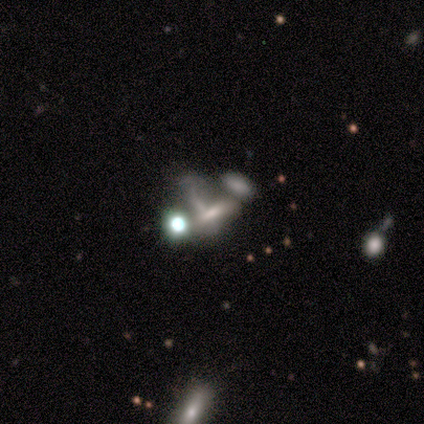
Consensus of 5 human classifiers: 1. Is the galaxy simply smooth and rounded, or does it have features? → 60% smooth, 20% featured or disk, 20% star or artifact.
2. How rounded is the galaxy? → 100% in between, 0% round, 0% cigar-shaped.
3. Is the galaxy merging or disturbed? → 75% major disturbance, 25% merger, 0% none, 0% minor disturbance.